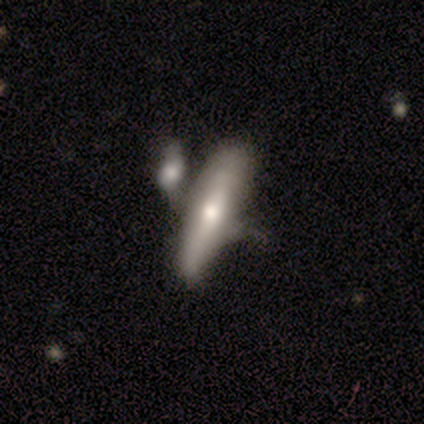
Overall: smooth (50%, tied with featured or disk). How rounded: cigar-shaped (67%; in between 33%). Merging: merger (50%; none 17%).